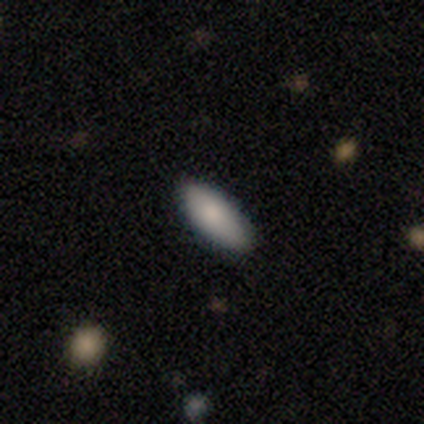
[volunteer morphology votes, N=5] This is clearly a smooth galaxy (80%). How rounded: clearly in between (100%). Merging: clearly none (100%).